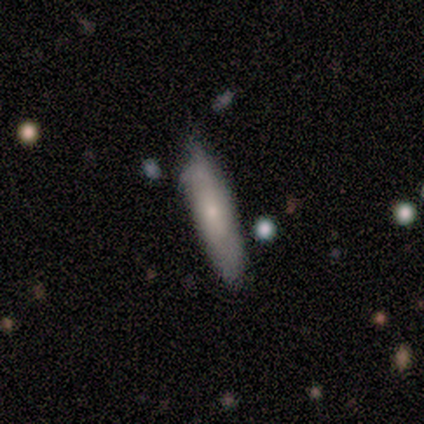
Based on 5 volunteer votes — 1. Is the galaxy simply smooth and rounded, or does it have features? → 80% smooth, 20% featured or disk, 0% star or artifact.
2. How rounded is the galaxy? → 75% cigar-shaped, 25% in between, 0% round.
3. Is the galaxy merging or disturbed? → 40% none (tied), 40% minor disturbance (tied), 20% major disturbance, 0% merger.